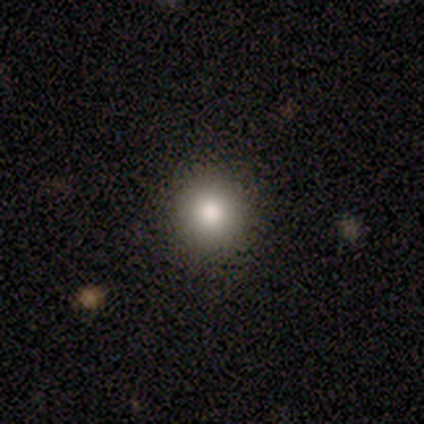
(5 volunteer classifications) smooth 80%, star or artifact 20%, featured or disk 0%. Down the decision tree: how rounded — round (75%); merging — none (75%).